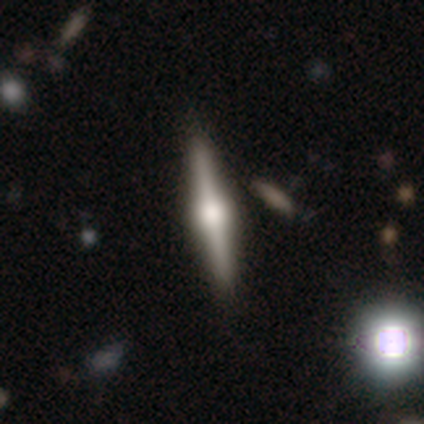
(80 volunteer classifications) Morphology: type=featured or disk (81%); edge-on=yes (98%); edge-on bulge=rounded (100%); merging=none (48%).